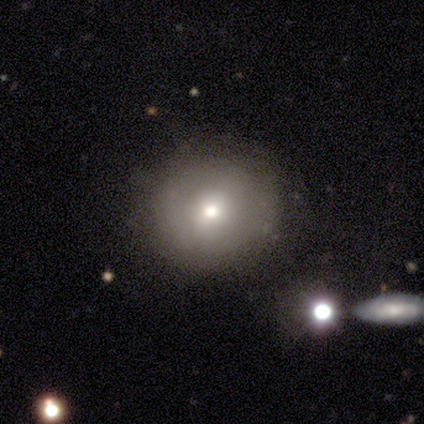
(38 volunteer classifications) Smooth or featured? smooth (53%)
How rounded? round (90%)
Merging? none (81%)